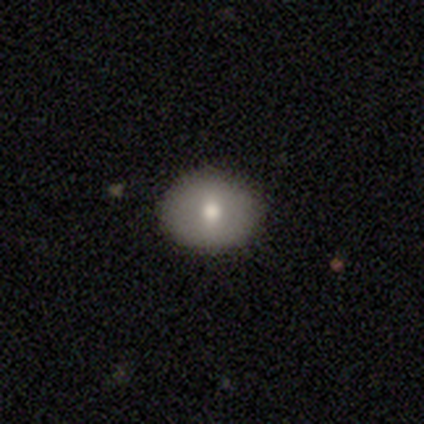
Smooth or featured?
  - smooth: 76% *
  - featured or disk: 16%
  - star or artifact: 8%
How rounded?
  - round: 62% *
  - in between: 38%
  - cigar-shaped: 0%
Merging?
  - none: 97% *
  - minor disturbance: 3%
  - major disturbance: 0%
  - merger: 0%